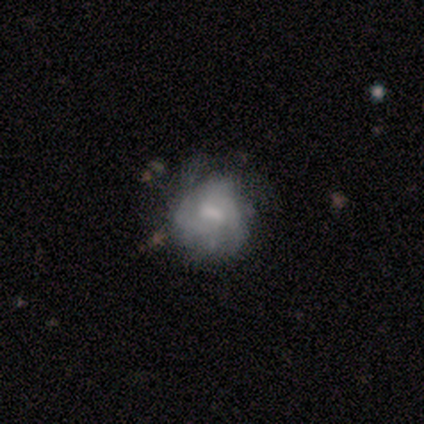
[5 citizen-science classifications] This appears to be a featured or disk galaxy (100%) with no bar (60%), 2 (33%, tied with 3 and 4) medium (100%) spiral arms (60%) and a moderate central bulge (40%, tied with small). Merging: none (80%).